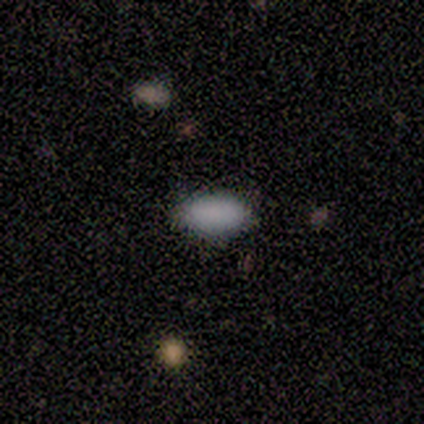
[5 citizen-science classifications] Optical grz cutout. It shows a smooth galaxy with no disk features (100%) that is in between round and cigar-shaped (100%). Merging: none (100%).